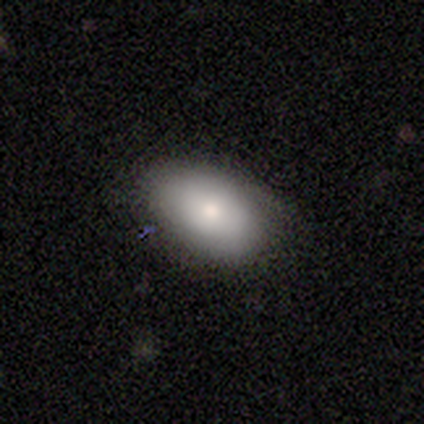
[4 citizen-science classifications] Smooth or featured?
  - smooth: 75% *
  - featured or disk: 25%
  - star or artifact: 0%
How rounded?
  - in between: 100% *
  - round: 0%
  - cigar-shaped: 0%
Merging?
  - none: 100% *
  - minor disturbance: 0%
  - major disturbance: 0%
  - merger: 0%